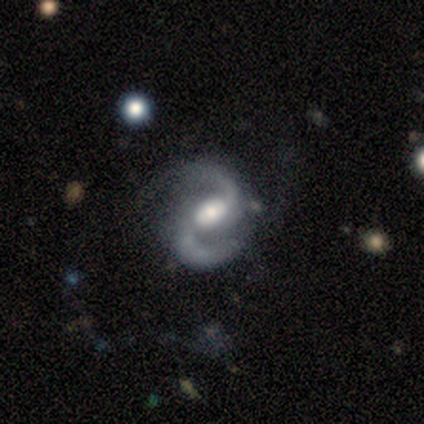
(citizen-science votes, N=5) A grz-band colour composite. It shows a featured or disk galaxy (100%) with a weak bar (80%), 2 (100%) medium (60%) spiral arms (100%) and a large central bulge (40%, tied with moderate). Merging: none (80%).